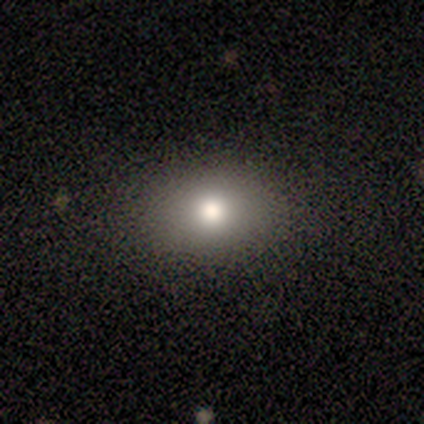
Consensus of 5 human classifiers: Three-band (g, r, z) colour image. It shows a smooth galaxy with no disk features (40%, tied with star or artifact) that is round (50%, tied with in between). Merging: none (100%).